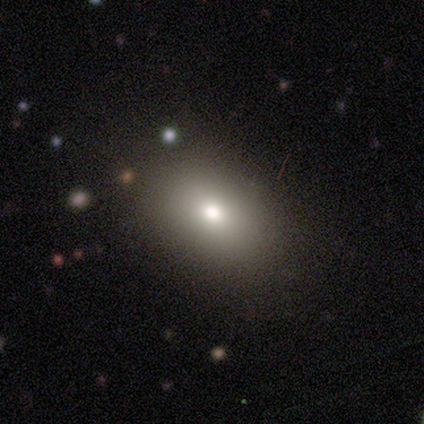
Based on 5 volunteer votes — smooth 80%, featured or disk 20%, star or artifact 0%. Down the decision tree: how rounded — in between (100%); merging — none (100%).